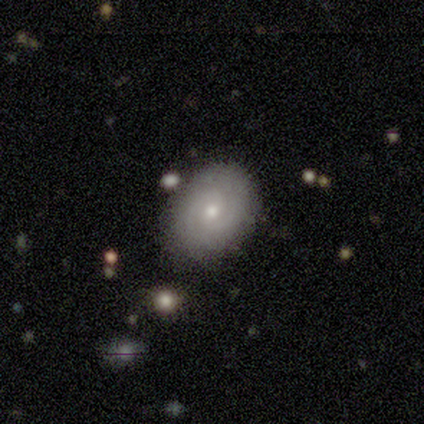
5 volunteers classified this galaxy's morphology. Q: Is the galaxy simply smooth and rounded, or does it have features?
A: smooth — 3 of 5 (60%).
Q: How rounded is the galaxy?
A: round — 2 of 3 (67%).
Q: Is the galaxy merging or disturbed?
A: none — 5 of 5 (100%).